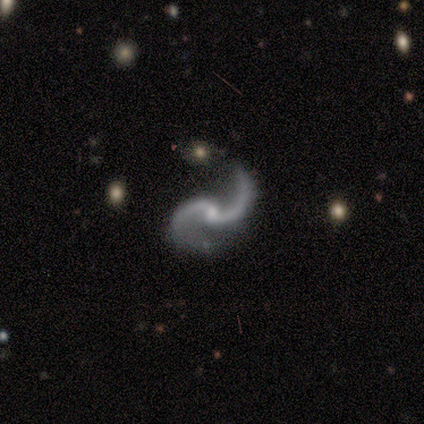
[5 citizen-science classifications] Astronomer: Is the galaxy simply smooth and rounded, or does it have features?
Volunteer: featured or disk — 100%.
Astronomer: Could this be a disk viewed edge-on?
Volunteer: no — 100%.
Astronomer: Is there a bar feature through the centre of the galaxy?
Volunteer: no — 80%.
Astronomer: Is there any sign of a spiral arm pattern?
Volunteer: yes — 100%.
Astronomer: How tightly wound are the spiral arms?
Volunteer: loose — 100%.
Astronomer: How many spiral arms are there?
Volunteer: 2 — 100%.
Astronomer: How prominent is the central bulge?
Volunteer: small — 100%.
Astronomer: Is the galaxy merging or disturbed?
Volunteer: none — 60% (runner-up: minor disturbance, 40%).